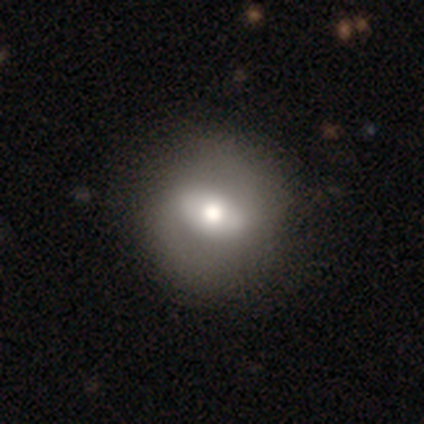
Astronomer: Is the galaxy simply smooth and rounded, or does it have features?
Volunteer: smooth — 75%.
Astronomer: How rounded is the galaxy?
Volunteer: round — 100%.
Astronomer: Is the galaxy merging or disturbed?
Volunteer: none — 100%.